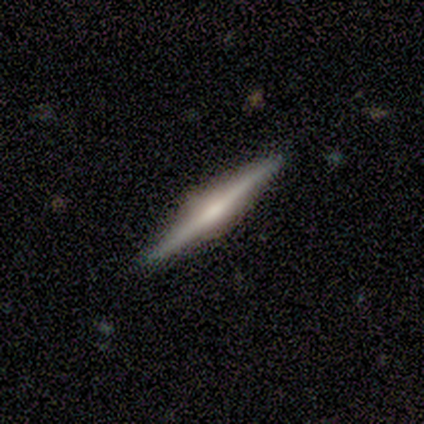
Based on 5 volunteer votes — This appears to be a featured or disk galaxy (80%) viewed edge-on (100%) with a rounded central bulge (75%). Merging: none (100%).